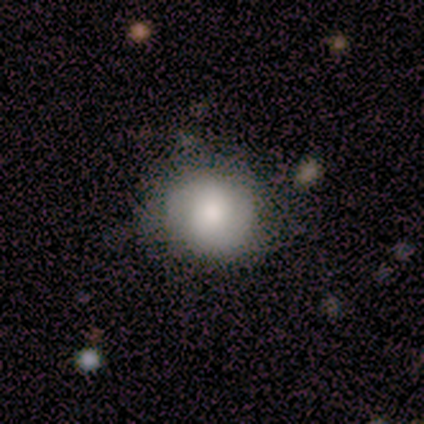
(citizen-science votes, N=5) This appears to be a smooth galaxy with no disk features (80%) that is round (100%). Merging: none (75%).